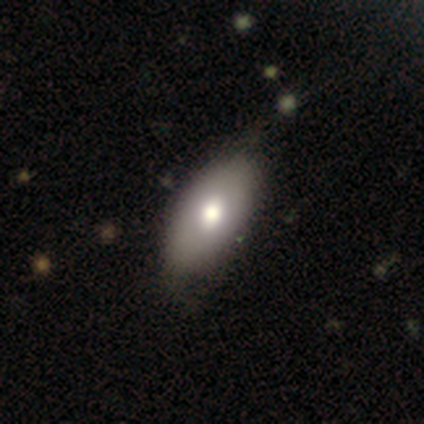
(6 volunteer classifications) A featured or disk galaxy (50%) viewed edge-on (67%) with a rounded central bulge (100%).

Vote fractions:
- Smooth or featured? featured or disk: 50% / smooth: 33% / star or artifact: 17%
- Edge-on disk? yes: 67% / no: 33%
- Edge-on bulge? rounded: 100% / boxy: 0% / none: 0%
- Merging? none: 80% / minor disturbance: 20% / major disturbance: 0% / merger: 0%